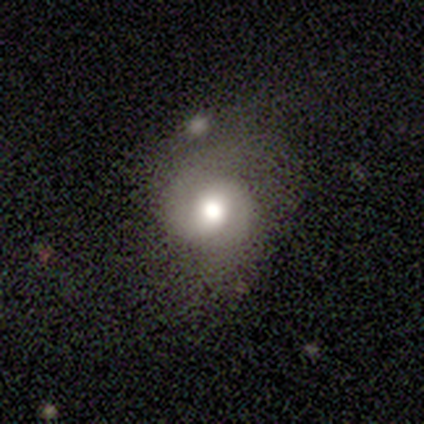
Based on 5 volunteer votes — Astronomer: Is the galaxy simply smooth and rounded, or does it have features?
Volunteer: featured or disk — 100%.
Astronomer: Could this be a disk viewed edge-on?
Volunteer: no — 100%.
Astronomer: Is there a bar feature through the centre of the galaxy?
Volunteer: weak — 60% (runner-up: no, 40%).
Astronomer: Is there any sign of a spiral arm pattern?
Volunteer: yes — 100%.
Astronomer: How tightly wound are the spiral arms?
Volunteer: medium — 80%.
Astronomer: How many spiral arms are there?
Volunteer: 2 — 100%.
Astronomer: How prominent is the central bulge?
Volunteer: moderate — 100%.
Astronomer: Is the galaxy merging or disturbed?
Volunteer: none — 60% (runner-up: major disturbance, 40%).